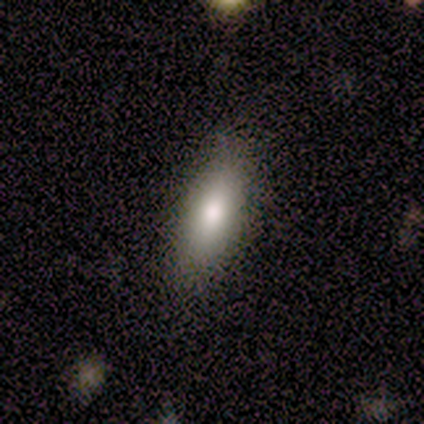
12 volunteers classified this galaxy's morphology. smooth 83%, featured or disk 8%, star or artifact 8%. Down the decision tree: how rounded — in between (50%, tied with cigar-shaped); merging — none (73%).